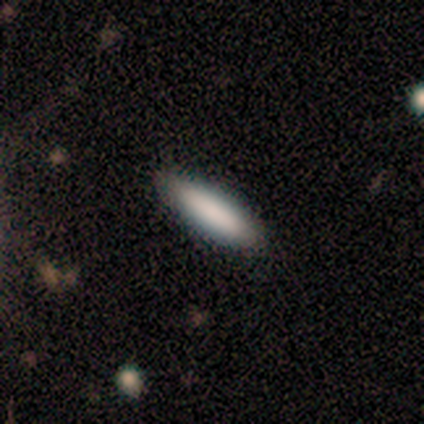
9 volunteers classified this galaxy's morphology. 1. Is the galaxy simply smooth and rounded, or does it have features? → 89% smooth, 11% featured or disk, 0% star or artifact.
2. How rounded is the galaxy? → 75% cigar-shaped, 25% in between, 0% round.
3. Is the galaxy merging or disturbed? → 89% none, 11% minor disturbance, 0% major disturbance, 0% merger.